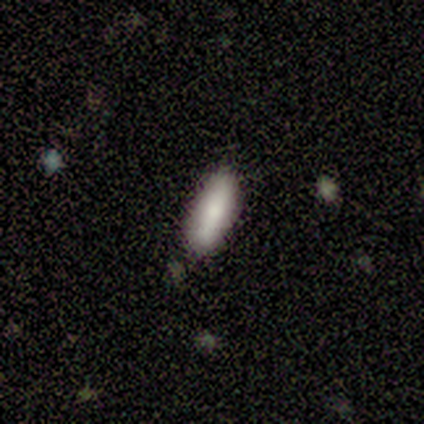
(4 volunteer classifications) This appears to be a smooth galaxy with no disk features (100%) that is in between round and cigar-shaped (75%). Merging: none (75%).